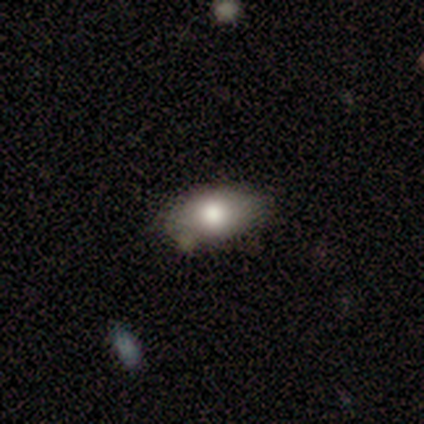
Smooth or featured?
  - smooth: 78% *
  - featured or disk: 14%
  - star or artifact: 8%
How rounded?
  - in between: 93% *
  - round: 7%
  - cigar-shaped: 0%
Merging?
  - none: 88% *
  - minor disturbance: 6%
  - merger: 6%
  - major disturbance: 0%